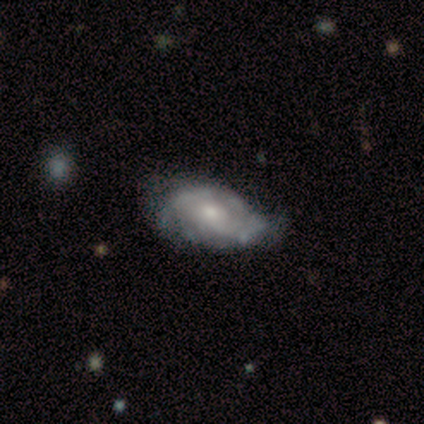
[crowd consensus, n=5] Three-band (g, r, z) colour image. It shows a featured or disk galaxy (60%) with no bar (100%), medium (67%) spiral arms (100%) and a large central bulge (67%). Merging: none (40%, tied with major disturbance).